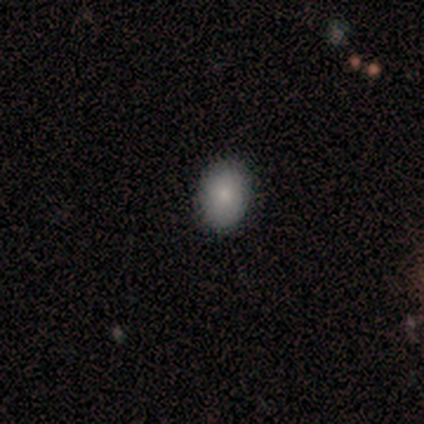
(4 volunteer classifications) smooth-or-featured: smooth: 75% | featured or disk: 25% | star or artifact: 0%
  how-rounded: in between: 100% | round: 0% | cigar-shaped: 0%
  merging: none: 100% | minor disturbance: 0% | major disturbance: 0% | merger: 0%